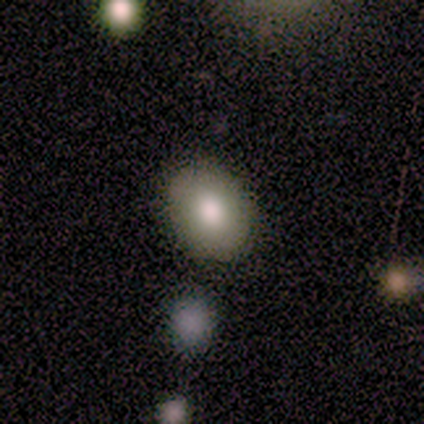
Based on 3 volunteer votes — smooth_or_featured: smooth (p=1.00)
how_rounded: in between (p=0.67) [alt: round p=0.33]
merging: none (p=0.67) [alt: merger p=0.33]